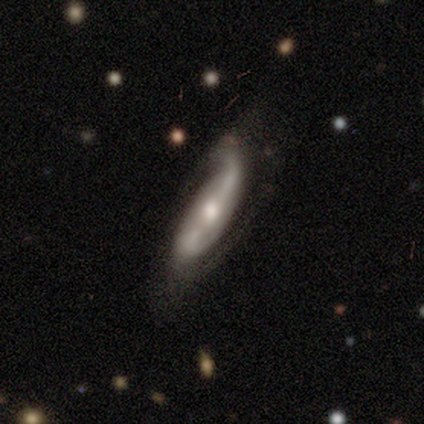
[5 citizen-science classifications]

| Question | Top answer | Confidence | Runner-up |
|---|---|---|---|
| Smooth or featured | featured or disk | 80% | smooth (20%) |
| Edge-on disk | no | 100% | — |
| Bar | strong | 50% | weak (25%) |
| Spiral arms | yes | 75% | no (25%) |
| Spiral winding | loose | 67% | medium (33%) |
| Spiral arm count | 2 | 100% | — |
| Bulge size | moderate | 100% | — |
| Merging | none | 60% | minor disturbance (40%) |